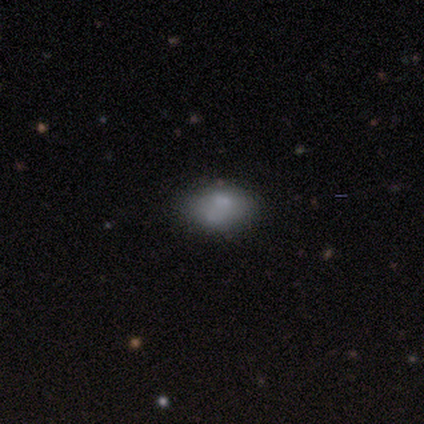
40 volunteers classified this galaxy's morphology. Smooth or featured: smooth — 72% (featured or disk — 28%)
How rounded: in between — 86% (round — 14%)
Merging: none — 60% (minor disturbance — 25%)